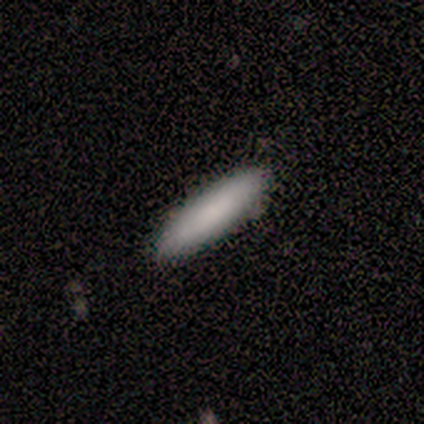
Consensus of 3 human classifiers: Smooth or featured? smooth (67%)
How rounded? in between (50%, tied with cigar-shaped)
Merging? none (67%)